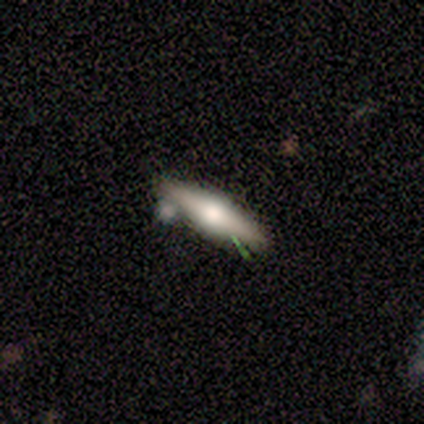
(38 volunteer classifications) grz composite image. It shows a featured or disk galaxy (66%) viewed edge-on (88%) with a rounded central bulge (91%). Merging: none (78%).